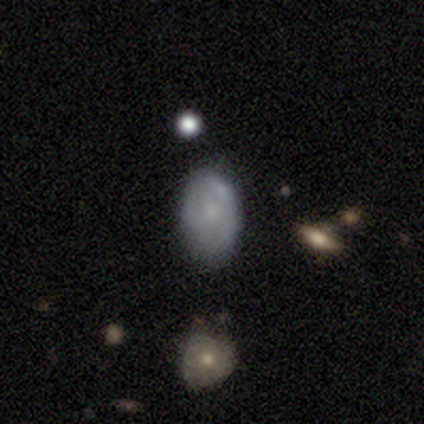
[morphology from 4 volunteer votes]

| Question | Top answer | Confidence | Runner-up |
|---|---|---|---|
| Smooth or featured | smooth | 75% | featured or disk (25%) |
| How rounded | round | 67% | in between (33%) |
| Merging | merger | 50% | none (25%) |